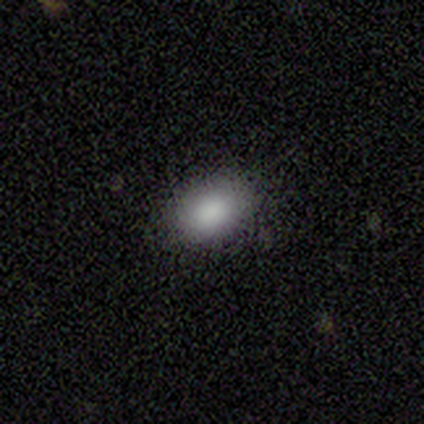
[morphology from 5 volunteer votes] Smooth or featured? smooth (100%)
How rounded? in between (80%)
Merging? none (80%)